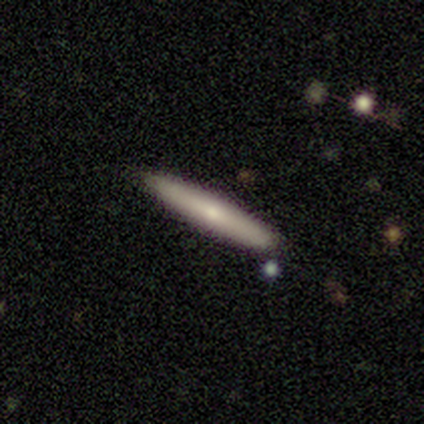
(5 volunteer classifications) A smooth galaxy with no disk features (80%) that is cigar-shaped (100%).

Vote fractions:
- Smooth or featured? smooth: 80% / featured or disk: 20% / star or artifact: 0%
- How rounded? cigar-shaped: 100% / round: 0% / in between: 0%
- Merging? none: 80% / minor disturbance: 20% / major disturbance: 0% / merger: 0%